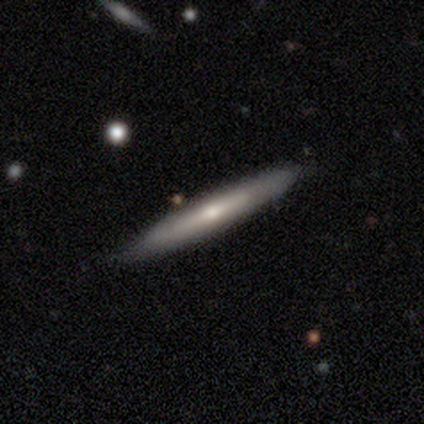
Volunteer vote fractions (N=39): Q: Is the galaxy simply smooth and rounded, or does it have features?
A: featured or disk — 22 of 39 (56%).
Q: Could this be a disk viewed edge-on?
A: yes — 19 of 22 (86%).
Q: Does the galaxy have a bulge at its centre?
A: rounded — 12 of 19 (63%).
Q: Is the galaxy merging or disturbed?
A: none — 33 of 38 (87%).